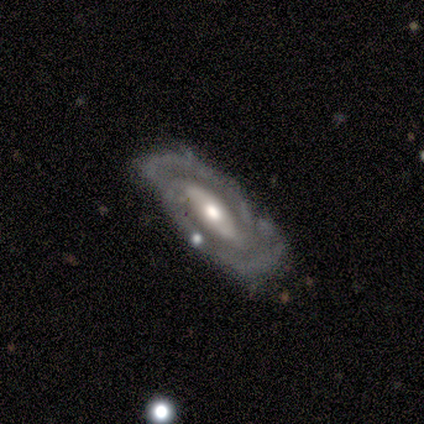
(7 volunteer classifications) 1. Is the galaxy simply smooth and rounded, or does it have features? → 100% featured or disk, 0% smooth, 0% star or artifact.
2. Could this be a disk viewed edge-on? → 100% no, 0% yes.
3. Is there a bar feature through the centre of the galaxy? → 57% no, 29% weak, 14% strong.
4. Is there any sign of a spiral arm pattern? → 71% yes, 29% no.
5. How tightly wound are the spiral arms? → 60% tight, 20% medium, 20% loose.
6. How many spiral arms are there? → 80% 2, 20% can't tell, 0% 1, 0% 3, 0% 4, 0% more than 4.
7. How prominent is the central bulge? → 57% small, 43% moderate, 0% dominant, 0% large, 0% none.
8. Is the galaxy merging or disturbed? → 57% none, 43% minor disturbance, 0% major disturbance, 0% merger.